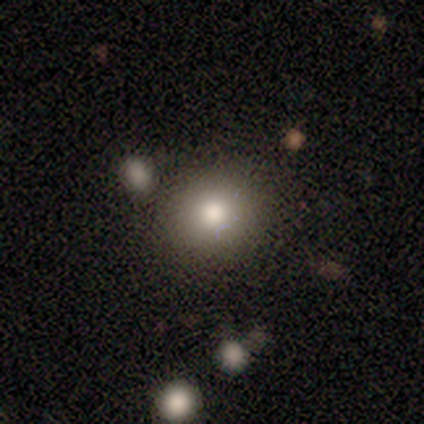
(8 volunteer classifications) Morphology: type=smooth (88%); roundness=round (86%); merging=none (88%).